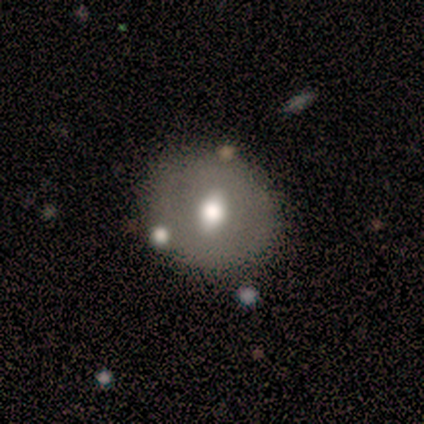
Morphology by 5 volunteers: Smooth or featured: smooth — 80% (featured or disk — 20%)
How rounded: round — 100%
Merging: none — 100%